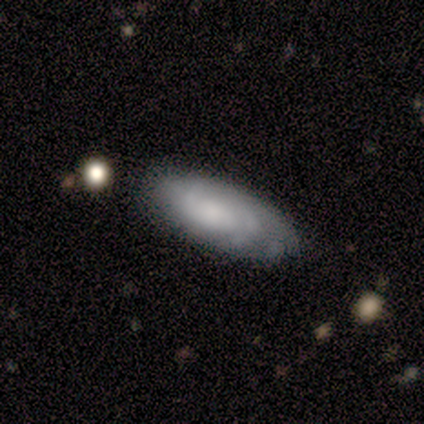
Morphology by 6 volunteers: featured or disk 83%, smooth 17%, star or artifact 0%. Down the decision tree: edge-on disk — no (100%); bar — no (80%); spiral arms — yes (80%); spiral arm count — 2 (50%, tied with can't tell); spiral winding — tight (50%, tied with medium); bulge size — moderate (40%, tied with none); merging — none (50%).